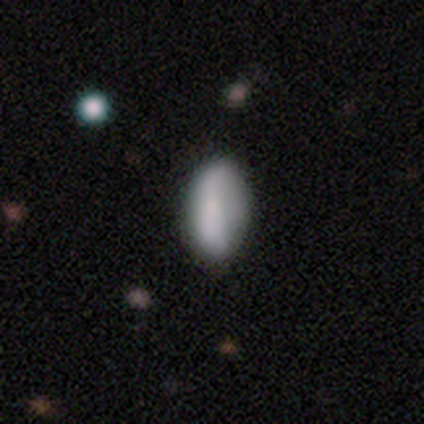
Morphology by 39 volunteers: This appears to be a smooth galaxy with no disk features (77%) that is in between round and cigar-shaped (90%). Merging: none (37%).